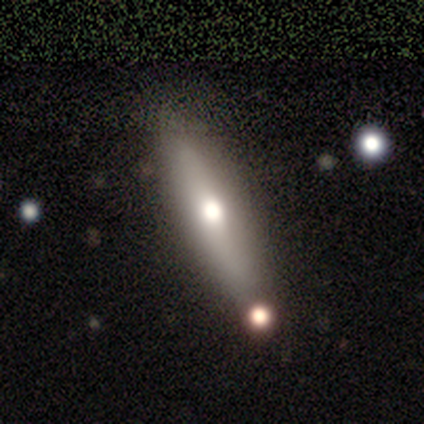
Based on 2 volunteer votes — This appears to be a smooth galaxy with no disk features (50%, tied with featured or disk) that is cigar-shaped (100%). Merging: none (100%).